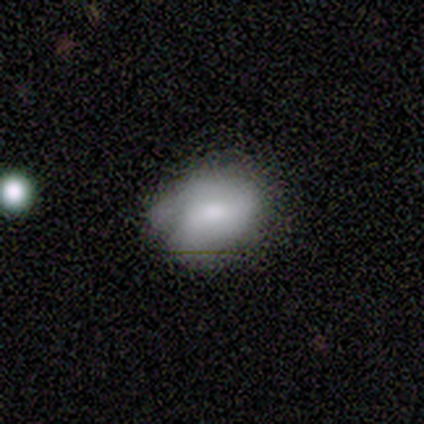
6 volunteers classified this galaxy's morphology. Volunteers were most divided on "bar" (2-way tie): weak: 50%, no: 50%, strong: 0%; "spiral arms" (2-way tie): yes: 50%, no: 50%; "spiral winding" (2-way tie): tight: 50%, medium: 50%, loose: 0%; "spiral arm count" (2-way tie): 1: 50%, 2: 50%, 3: 0%, 4: 0%, more than 4: 0%, can't tell: 0%. More confident: edge-on disk — no (100%); smooth or featured — featured or disk (67%); merging — none (50%); bulge size — small (50%).